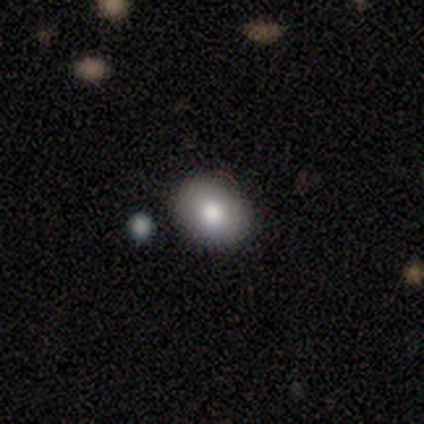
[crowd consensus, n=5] Q: Smooth or featured?
A: featured or disk (60%); runner-up: smooth (40%)
Q: Edge-on disk?
A: no (67%); runner-up: yes (33%)
Q: Bar?
A: no (100%)
Q: Spiral arms?
A: no (100%)
Q: Bulge size?
A: moderate (100%)
Q: Merging?
A: none (100%)